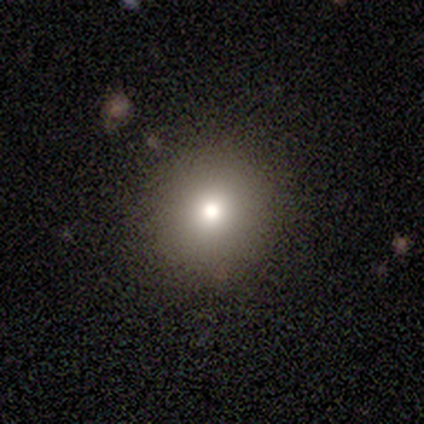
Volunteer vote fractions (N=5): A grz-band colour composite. It shows a smooth galaxy with no disk features (100%) that is round (100%). Merging: none (100%).